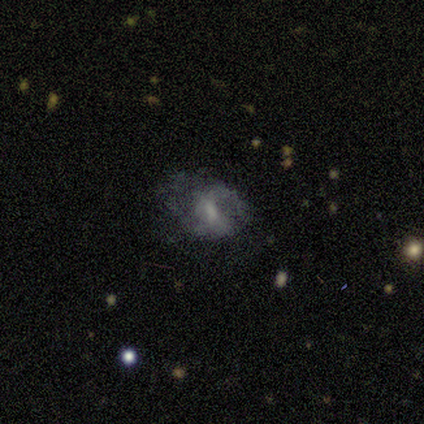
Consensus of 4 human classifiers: Volunteers were most divided on "bulge size" (3-way tie): large: 33%, moderate: 33%, small: 33%, dominant: 0%, none: 0%; "merging" (2-way tie): none: 50%, major disturbance: 50%, minor disturbance: 0%, merger: 0%. More confident: edge-on disk — no (100%); smooth or featured — featured or disk (75%); bar — weak (67%); spiral arms — no (67%).